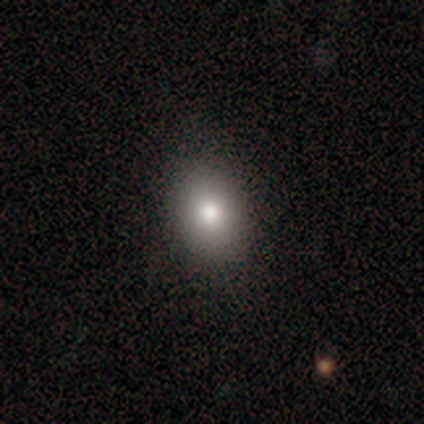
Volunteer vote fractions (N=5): A smooth galaxy with no disk features (100%) that is in between round and cigar-shaped (60%). Merging: none (60%).